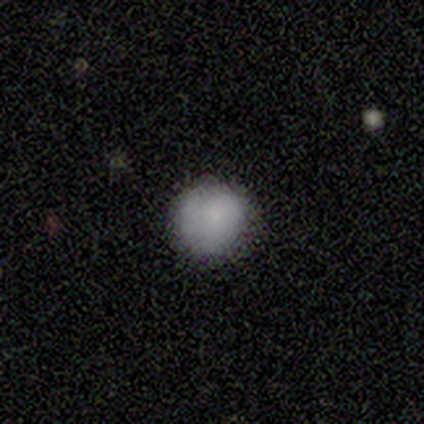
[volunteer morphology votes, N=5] type=smooth (100%); roundness=round (80%); merging=none (100%).